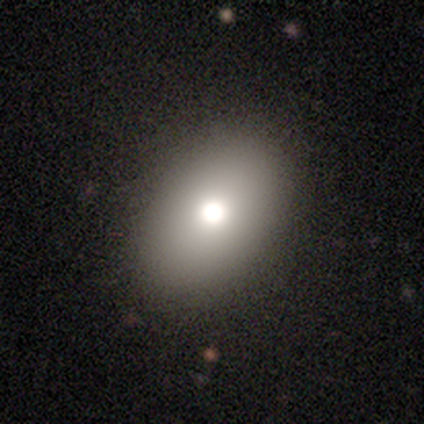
Smooth or featured: smooth — 100%
How rounded: in between — 100%
Merging: none — 100%